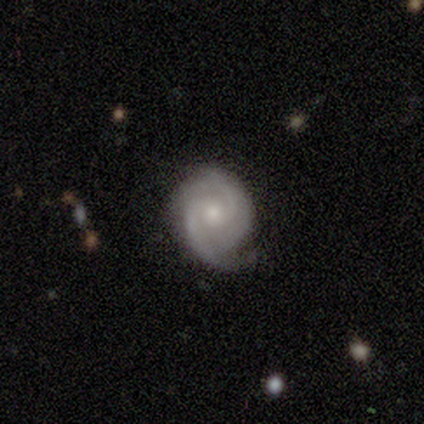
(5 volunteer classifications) Q: Smooth or featured?
A: featured or disk (100%)
Q: Edge-on disk?
A: no (100%)
Q: Bar?
A: no (80%); runner-up: weak (20%)
Q: Spiral arms?
A: yes (80%); runner-up: no (20%)
Q: Spiral winding?
A: tight (50%); runner-up: medium (25%)
Q: Spiral arm count?
A: 2 (100%)
Q: Bulge size?
A: small (80%); runner-up: moderate (20%)
Q: Merging?
A: none (80%); runner-up: major disturbance (20%)